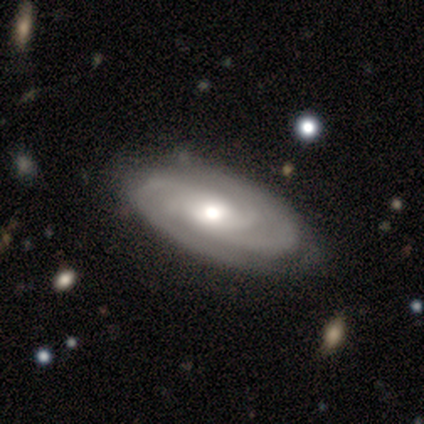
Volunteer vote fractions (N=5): Smooth or featured? featured or disk (100%)
Edge-on disk? no (100%)
Bar? no (60%)
Spiral arms? yes (100%)
Spiral winding? tight (100%)
Spiral arm count? 3 (60%)
Bulge size? moderate (80%)
Merging? none (80%)